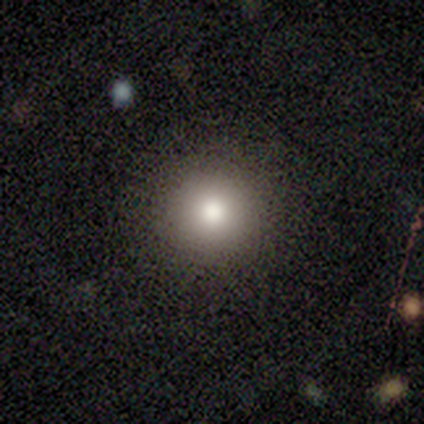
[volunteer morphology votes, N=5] Smooth or featured: smooth — 100%
How rounded: round — 100%
Merging: none — 80% (minor disturbance — 20%)